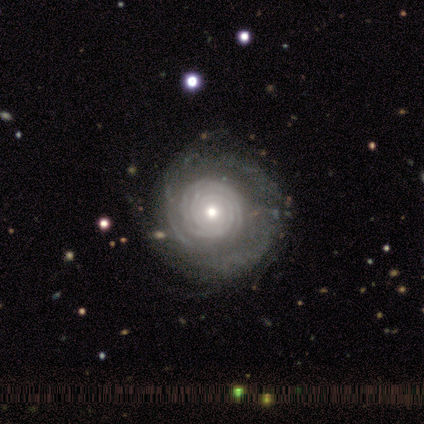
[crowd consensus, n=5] featured or disk 100%, smooth 0%, star or artifact 0%. Down the decision tree: edge-on disk — no (100%); bar — no (80%); spiral arms — yes (100%); spiral arm count — 4 (40%); spiral winding — tight (80%); bulge size — small (60%); merging — none (100%).